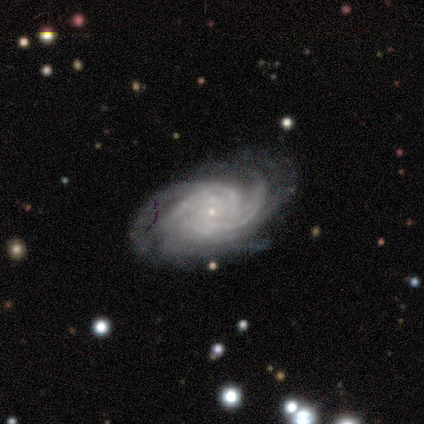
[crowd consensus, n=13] featured or disk 100%, smooth 0%, star or artifact 0%. Down the decision tree: edge-on disk — no (92%); bar — no (75%); spiral arms — yes (100%); spiral arm count — 4 (50%); spiral winding — tight (83%); bulge size — small (92%); merging — none (69%).